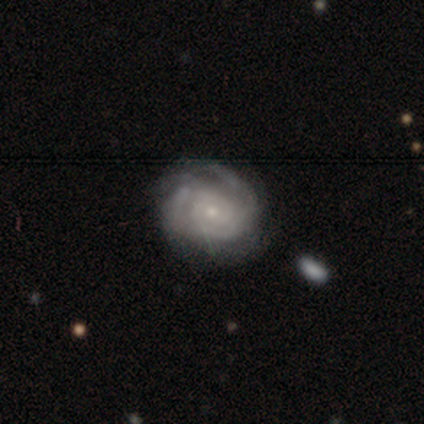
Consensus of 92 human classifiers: Smooth or featured? featured or disk (83%)
Edge-on disk? no (97%)
Bar? no (77%)
Spiral arms? yes (96%)
Spiral winding? tight (76%)
Spiral arm count? can't tell (44%)
Bulge size? small (88%)
Merging? none (75%)